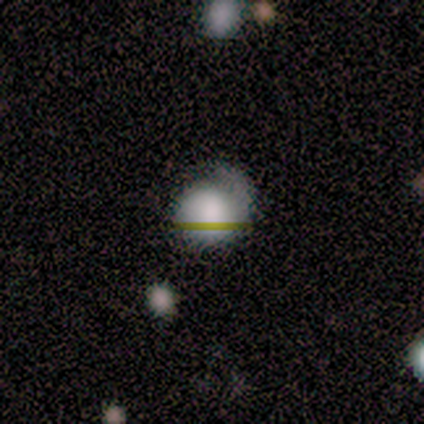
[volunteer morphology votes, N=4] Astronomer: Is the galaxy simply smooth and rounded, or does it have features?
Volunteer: star or artifact — 50%.